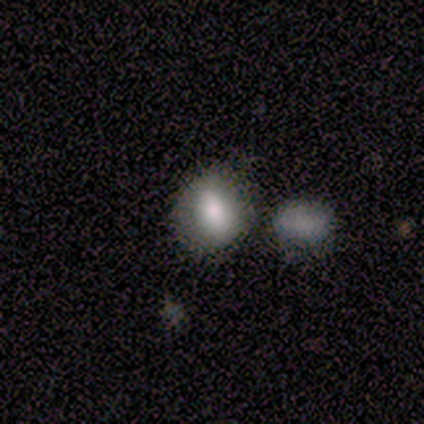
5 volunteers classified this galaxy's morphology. Volunteers were most divided on "how rounded": round: 60%, in between: 40%, cigar-shaped: 0%. More confident: smooth or featured — smooth (100%); merging — none (60%).